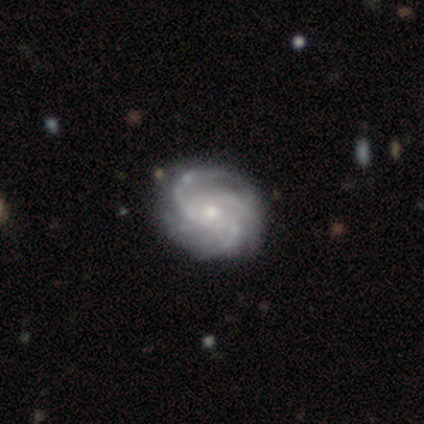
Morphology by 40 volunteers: smooth-or-featured: featured or disk: 98% | smooth: 2% | star or artifact: 0%
  disk-edge-on: no: 100% | yes: 0%
    bar: no: 82% | weak: 15% | strong: 3%
    has-spiral-arms: yes: 100% | no: 0%
      spiral-winding: tight: 54% | medium: 38% | loose: 8%
      spiral-arm-count: 4: 41% | 3: 36% | can't tell: 18% | 2: 3% | more than 4: 3% | 1: 0%
    bulge-size: small: 67% | moderate: 33% | dominant: 0% | large: 0% | none: 0%
  merging: none: 65% | minor disturbance: 5% | major disturbance: 5% | merger: 0%